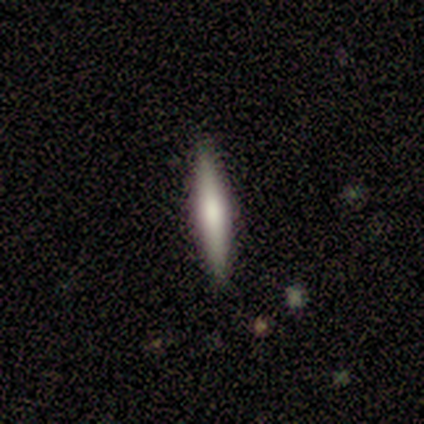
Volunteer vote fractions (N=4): Smooth or featured? 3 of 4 (75%) said featured or disk. Edge-on disk? 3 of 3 (100%) said yes. Edge-on bulge? 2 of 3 (67%) said rounded. Merging? 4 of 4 (100%) said none.